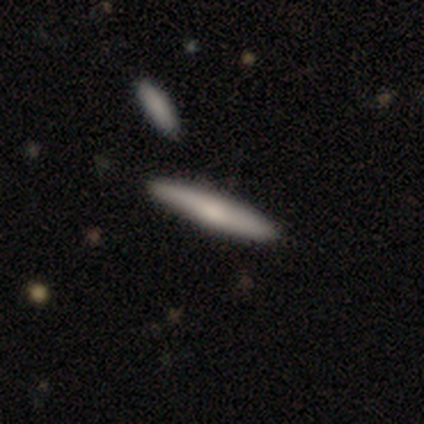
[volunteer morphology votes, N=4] type=smooth (100%); roundness=cigar-shaped (75%); merging=none (75%).